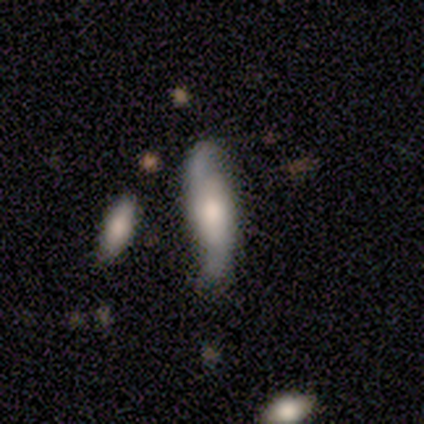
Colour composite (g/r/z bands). It shows a featured or disk galaxy (70%) with no bar (76%), 2 (95%) loose (52%) spiral arms (100%) and a moderate central bulge (67%). Merging: none (68%).